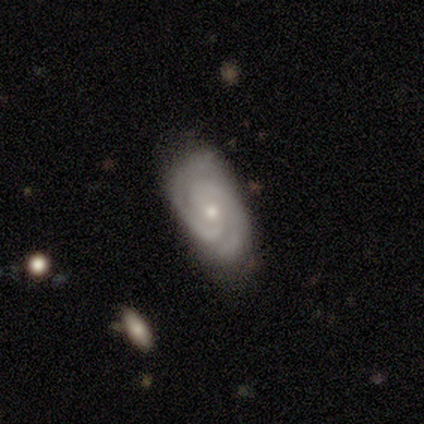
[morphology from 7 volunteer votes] A featured or disk galaxy (86%) with no bar (60%), 2 (80%) tight (80%) spiral arms (100%) and a small central bulge (60%).

Vote fractions:
- Smooth or featured? featured or disk: 86% / smooth: 14% / star or artifact: 0%
- Edge-on disk? no: 83% / yes: 17%
- Bar? no: 60% / strong: 20% / weak: 20%
- Spiral arms? yes: 100% / no: 0%
- Spiral winding? tight: 80% / medium: 20% / loose: 0%
- Spiral arm count? 2: 80% / can't tell: 20% / 1: 0% / 3: 0% / 4: 0% / more than 4: 0%
- Bulge size? small: 60% / moderate: 40% / dominant: 0% / large: 0% / none: 0%
- Merging? none: 43% / minor disturbance: 29% / major disturbance: 14% / merger: 14%